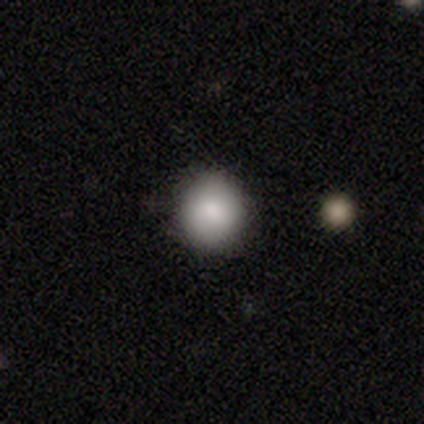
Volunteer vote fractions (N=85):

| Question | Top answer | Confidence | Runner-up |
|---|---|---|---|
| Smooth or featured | smooth | 84% | star or artifact (12%) |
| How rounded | round | 94% | in between (6%) |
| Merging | none | 95% | minor disturbance (4%) |